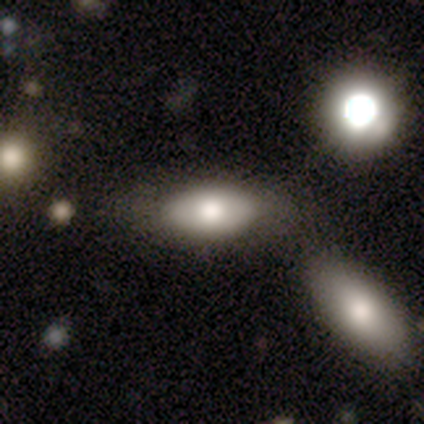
smooth 75%, featured or disk 25%, star or artifact 0%. Down the decision tree: how rounded — in between (67%); merging — none (75%).